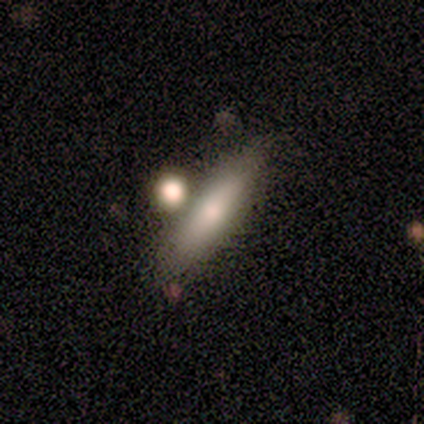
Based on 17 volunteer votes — Q: Smooth or featured?
A: smooth (88%); runner-up: featured or disk (12%)
Q: How rounded?
A: cigar-shaped (67%); runner-up: in between (33%)
Q: Merging?
A: none (65%); runner-up: major disturbance (18%)